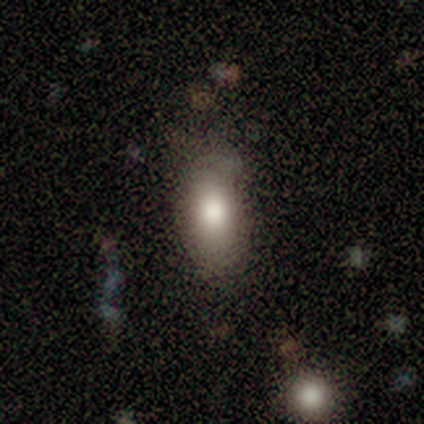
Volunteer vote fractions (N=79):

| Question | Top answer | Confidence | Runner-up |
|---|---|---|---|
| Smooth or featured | smooth | 84% | star or artifact (9%) |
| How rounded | in between | 91% | cigar-shaped (6%) |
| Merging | none | 47% | minor disturbance (11%) |